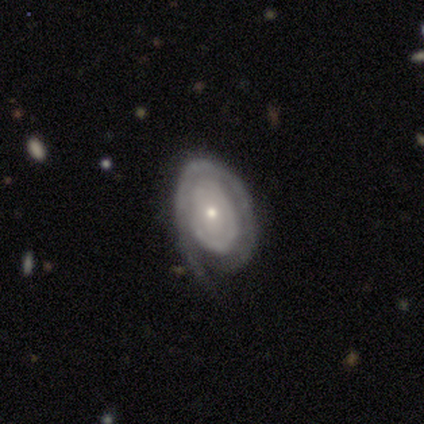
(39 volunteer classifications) smooth-or-featured: featured or disk: 87% | star or artifact: 8% | smooth: 5%
  disk-edge-on: no: 94% | yes: 6%
    bar: no: 84% | weak: 9% | strong: 6%
    has-spiral-arms: yes: 78% | no: 22%
      spiral-winding: tight: 84% | loose: 12% | medium: 4%
      spiral-arm-count: can't tell: 44% | 1: 32% | 2: 12% | 3: 8% | 4: 4% | more than 4: 0%
    bulge-size: small: 75% | moderate: 25% | dominant: 0% | large: 0% | none: 0%
  merging: none: 50% | minor disturbance: 31% | major disturbance: 17% | merger: 3%